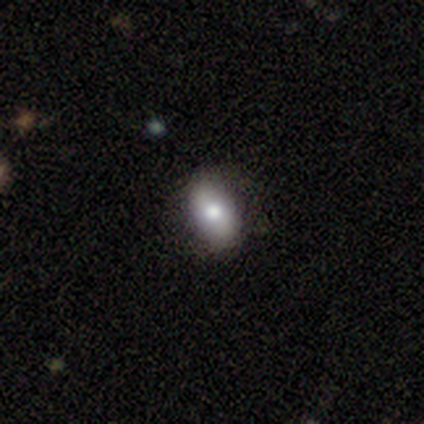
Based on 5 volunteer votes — A smooth galaxy with no disk features (100%) that is in between round and cigar-shaped (100%). Merging: none (100%).